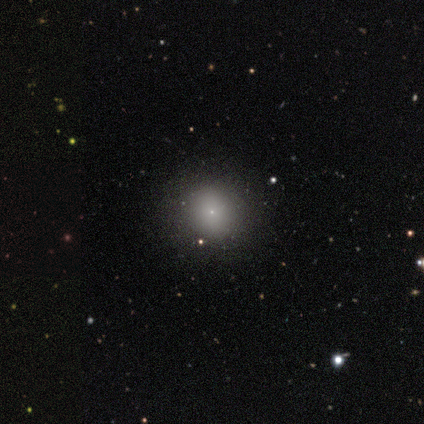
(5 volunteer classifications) Q: Smooth or featured?
A: smooth (60%); runner-up: featured or disk (20%)
Q: How rounded?
A: round (100%)
Q: Merging?
A: none (100%)